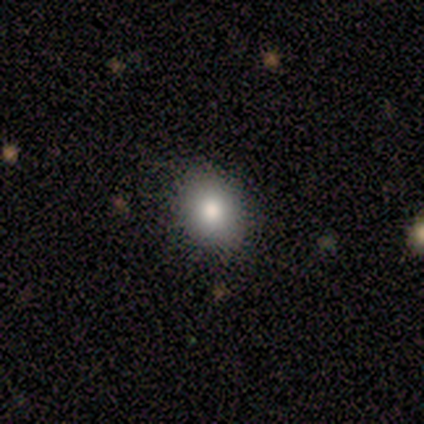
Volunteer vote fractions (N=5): A smooth galaxy with no disk features (60%) that is round (67%). Merging: none (100%).